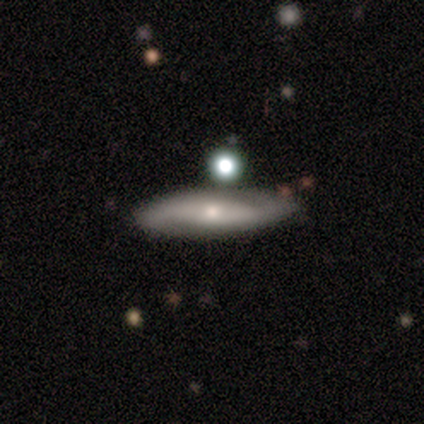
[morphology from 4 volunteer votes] Q: Smooth or featured?
A: featured or disk (75%); runner-up: smooth (25%)
Q: Edge-on disk?
A: yes (67%); runner-up: no (33%)
Q: Edge-on bulge?
A: rounded (100%)
Q: Merging?
A: none (75%); runner-up: merger (25%)